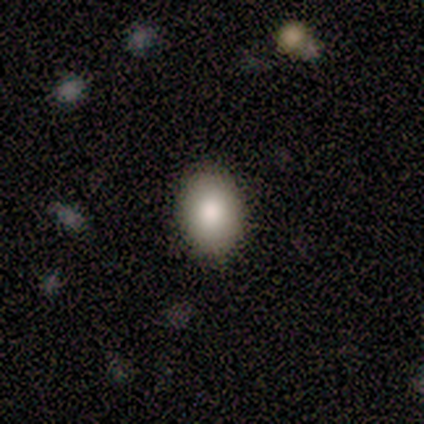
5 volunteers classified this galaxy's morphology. Smooth or featured? smooth (100%)
How rounded? round (60%)
Merging? none (100%)